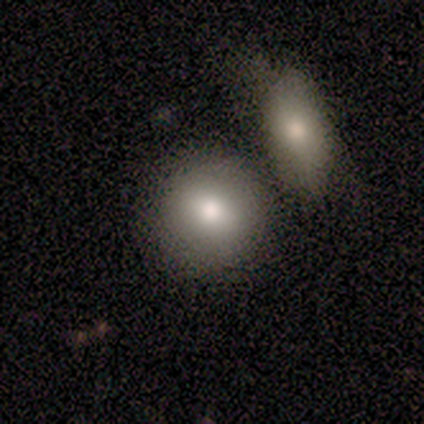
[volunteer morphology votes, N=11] type=smooth (91%); roundness=round (90%); merging=none (45%).